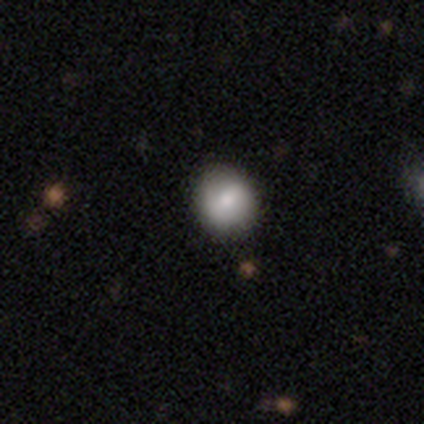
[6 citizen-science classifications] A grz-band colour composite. It shows a smooth galaxy with no disk features (83%) that is round (100%). Merging: none (100%).